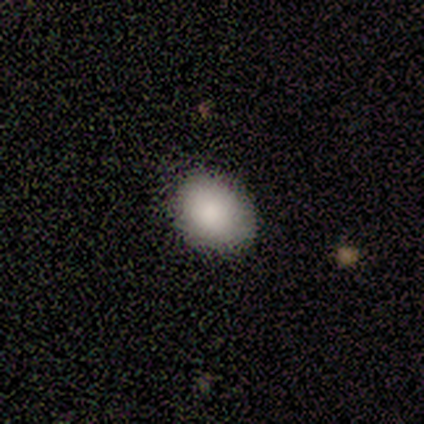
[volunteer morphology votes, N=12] smooth-or-featured: smooth: 83% | featured or disk: 8% | star or artifact: 8%
  how-rounded: in between: 60% | round: 40% | cigar-shaped: 0%
  merging: none: 91% | minor disturbance: 9% | major disturbance: 0% | merger: 0%